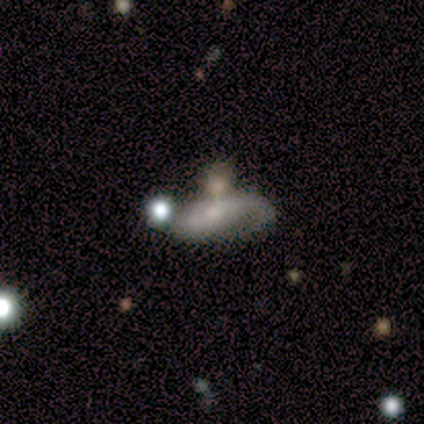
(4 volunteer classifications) Smooth or featured? 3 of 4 (75%) said featured or disk. Edge-on disk? 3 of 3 (100%) said no. Bar? 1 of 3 (33%, tied with weak and no) said strong. Spiral arms? 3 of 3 (100%) said yes. Spiral winding? 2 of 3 (67%) said medium. Spiral arm count? 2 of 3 (67%) said 2. Bulge size? 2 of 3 (67%) said moderate. Merging? 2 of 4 (50%) said major disturbance.